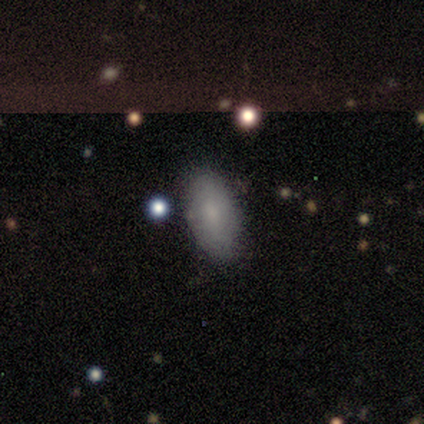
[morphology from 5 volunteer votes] type=smooth (80%); roundness=in between (100%); merging=none (100%).